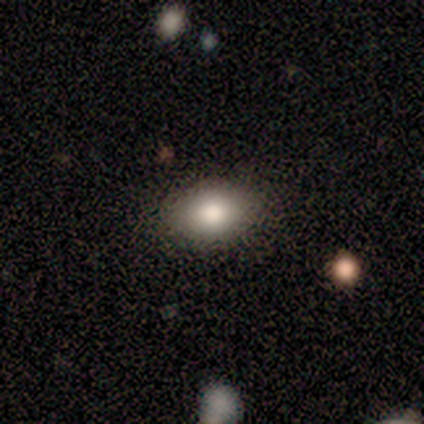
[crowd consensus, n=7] Smooth or featured? smooth (71%)
How rounded? in between (100%)
Merging? none (100%)